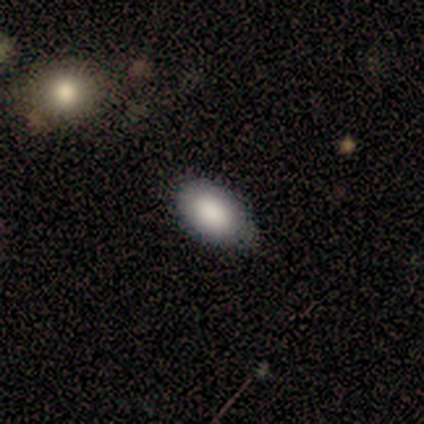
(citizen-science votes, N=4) smooth_or_featured: smooth (p=1.00)
how_rounded: in between (p=1.00)
merging: none (p=0.75) [alt: minor disturbance p=0.25]